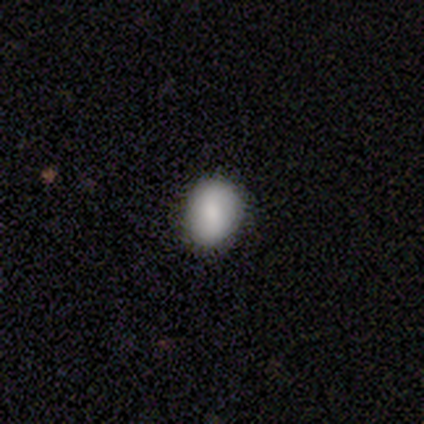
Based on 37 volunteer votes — Smooth or featured: smooth — 86% (featured or disk — 11%)
How rounded: in between — 56% (round — 44%)
Merging: none — 89% (minor disturbance — 11%)